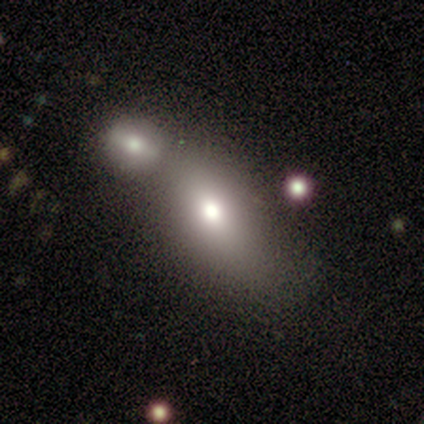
smooth 72%, featured or disk 17%, star or artifact 11%. Down the decision tree: how rounded — in between (73%); merging — merger (66%).